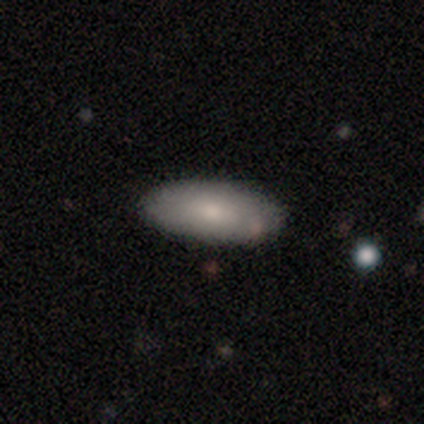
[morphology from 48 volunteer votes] Smooth or featured?
  - smooth: 79% *
  - featured or disk: 15%
  - star or artifact: 6%
How rounded?
  - in between: 87% *
  - cigar-shaped: 13%
  - round: 0%
Merging?
  - none: 91% *
  - minor disturbance: 4%
  - major disturbance: 4%
  - merger: 0%